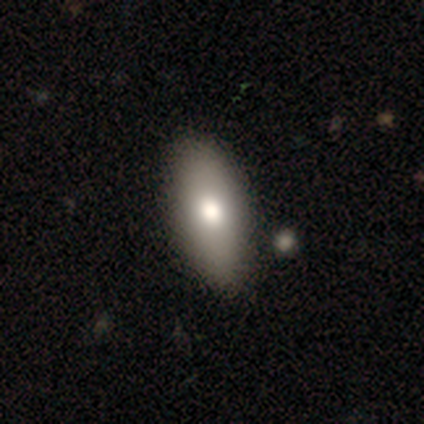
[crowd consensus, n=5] Volunteers were most divided on "smooth or featured": smooth: 80%, featured or disk: 20%, star or artifact: 0%. More confident: how rounded — in between (100%); merging — none (80%).